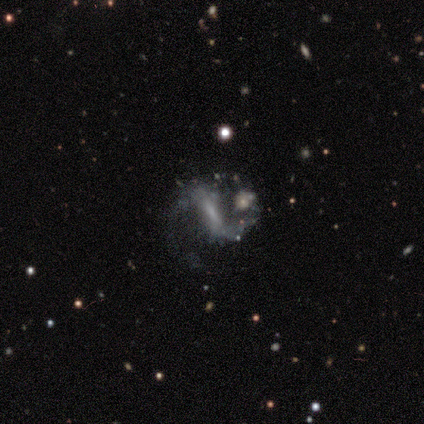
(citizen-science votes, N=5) Morphology: type=featured or disk (100%); edge-on=no (100%); bar=strong (80%); spiral arms=yes (100%); winding=medium (40%, tied with loose); arm count=2 (80%); bulge=none (60%); merging=none (40%, tied with merger).